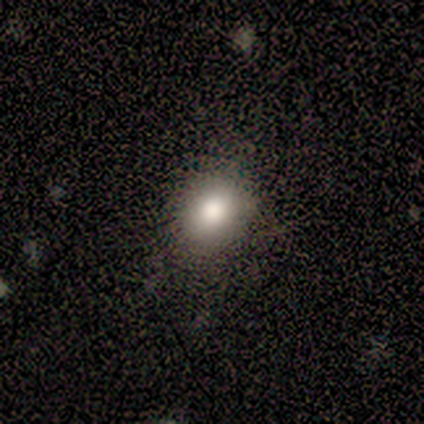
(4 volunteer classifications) This appears to be a smooth galaxy with no disk features (50%, tied with star or artifact) that is round (50%, tied with in between). Merging: none (100%).